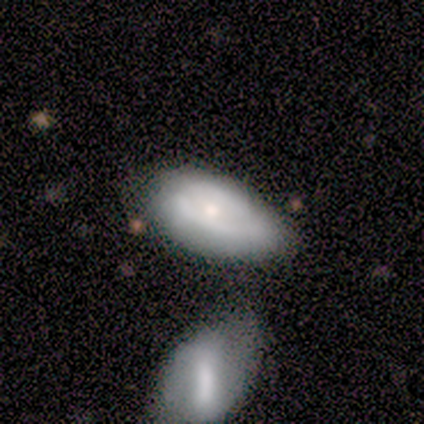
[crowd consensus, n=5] Q: Smooth or featured?
A: featured or disk (60%); runner-up: smooth (40%)
Q: Edge-on disk?
A: no (100%)
Q: Bar?
A: no (100%)
Q: Spiral arms?
A: no (67%); runner-up: yes (33%)
Q: Bulge size?
A: moderate (100%)
Q: Merging?
A: minor disturbance (40%); runner-up: none (20%)